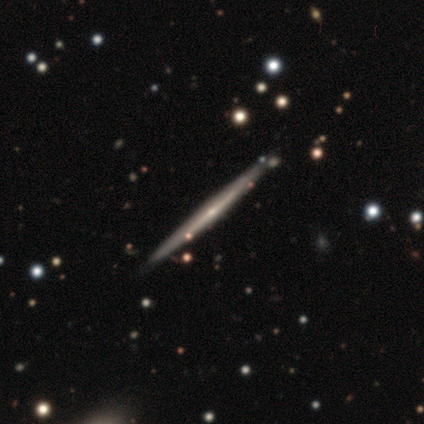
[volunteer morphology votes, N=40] Smooth or featured? 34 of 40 (85%) said featured or disk. Edge-on disk? 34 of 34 (100%) said yes. Edge-on bulge? 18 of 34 (53%) said rounded. Merging? 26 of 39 (67%) said none.